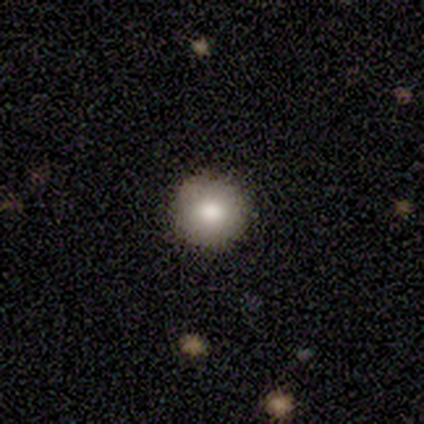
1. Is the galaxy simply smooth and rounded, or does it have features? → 87% smooth, 13% featured or disk, 0% star or artifact.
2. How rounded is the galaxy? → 91% round, 9% in between, 0% cigar-shaped.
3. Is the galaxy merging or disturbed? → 87% none, 11% minor disturbance, 3% major disturbance, 0% merger.